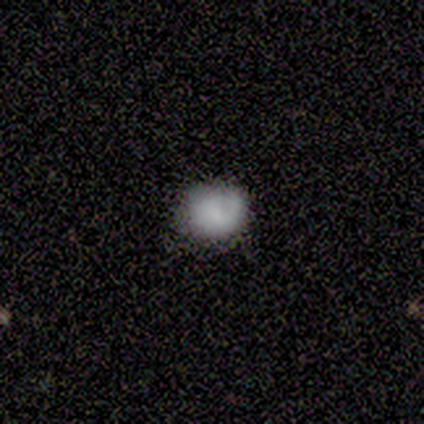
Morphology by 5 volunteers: Q: Smooth or featured?
A: smooth (60%); runner-up: featured or disk (20%)
Q: How rounded?
A: round (100%)
Q: Merging?
A: none (75%); runner-up: minor disturbance (25%)